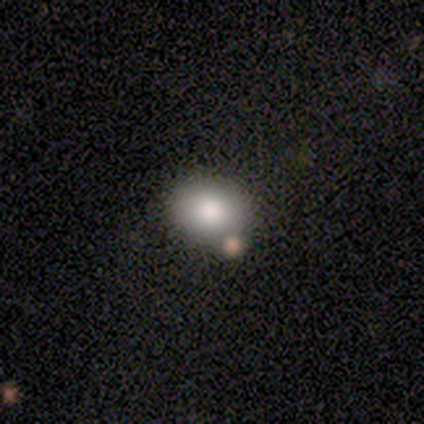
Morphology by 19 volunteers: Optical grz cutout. It shows a smooth galaxy with no disk features (84%) that is round (69%). Merging: none (94%).